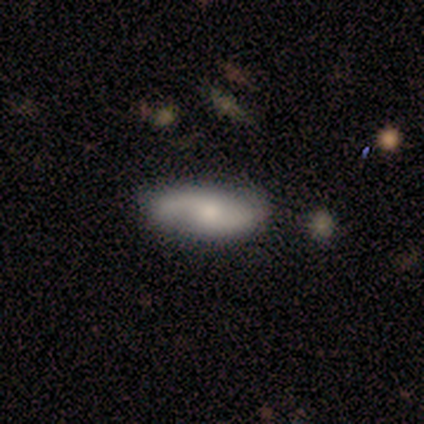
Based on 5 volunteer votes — Smooth or featured? featured or disk (60%)
Edge-on disk? no (67%)
Bar? no (100%)
Spiral arms? yes (50%, tied with no)
Spiral winding? loose (100%)
Spiral arm count? 2 (100%)
Bulge size? small (50%, tied with none)
Merging? none (60%)